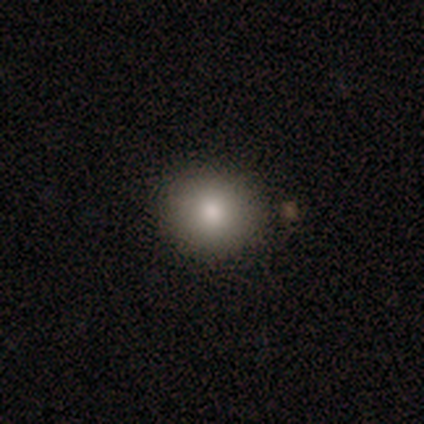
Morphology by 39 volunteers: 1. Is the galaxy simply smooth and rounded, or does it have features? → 92% smooth, 5% star or artifact, 3% featured or disk.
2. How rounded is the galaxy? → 92% round, 8% in between, 0% cigar-shaped.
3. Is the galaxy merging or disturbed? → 84% none, 11% merger, 5% minor disturbance, 0% major disturbance.